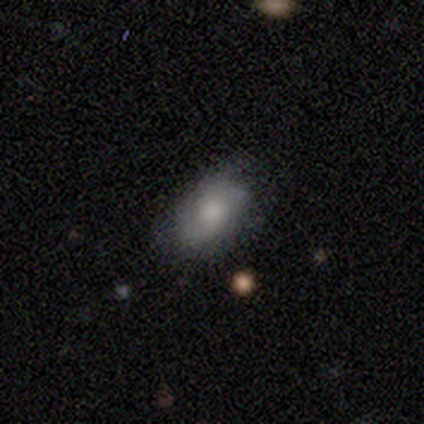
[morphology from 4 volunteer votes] A smooth galaxy with no disk features (75%) that is in between round and cigar-shaped (100%). Merging: none (50%, tied with minor disturbance).